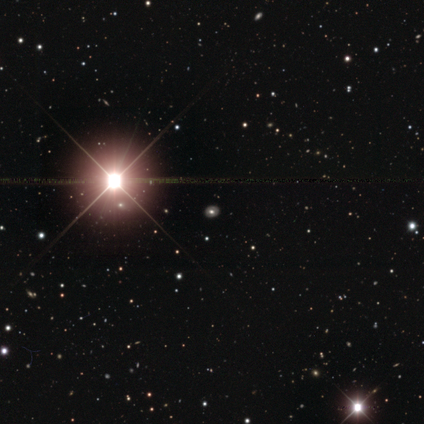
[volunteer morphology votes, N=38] Q: Smooth or featured?
A: star or artifact (76%); runner-up: smooth (16%)